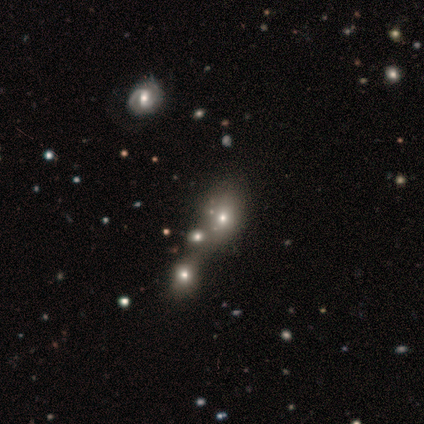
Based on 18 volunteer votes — Q: Smooth or featured?
A: smooth (72%); runner-up: featured or disk (17%)
Q: How rounded?
A: in between (69%); runner-up: round (31%)
Q: Merging?
A: none (44%); runner-up: merger (31%)